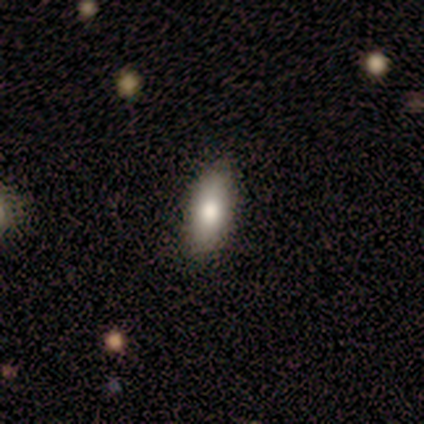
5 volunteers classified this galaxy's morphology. Q: Smooth or featured?
A: smooth (100%)
Q: How rounded?
A: in between (100%)
Q: Merging?
A: none (80%); runner-up: minor disturbance (20%)